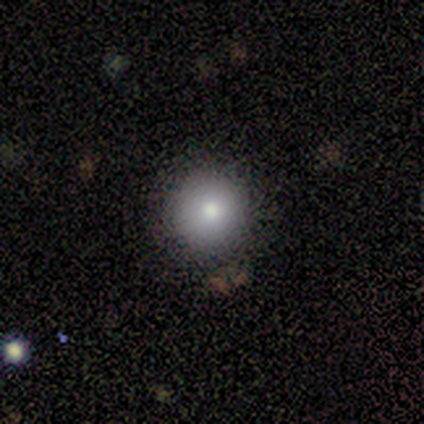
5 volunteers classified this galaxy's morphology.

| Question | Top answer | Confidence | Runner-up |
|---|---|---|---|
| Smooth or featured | star or artifact | 60% | smooth (20%) |